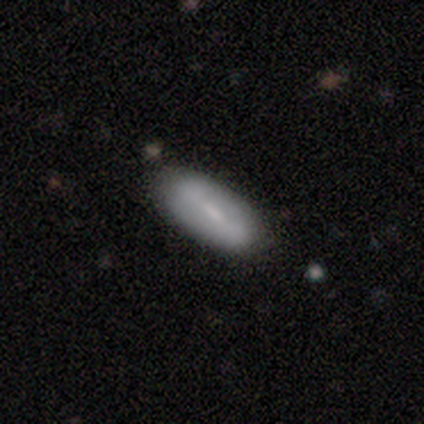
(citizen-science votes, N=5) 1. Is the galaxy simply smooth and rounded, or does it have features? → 60% smooth, 40% featured or disk, 0% star or artifact.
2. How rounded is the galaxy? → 67% in between, 33% cigar-shaped, 0% round.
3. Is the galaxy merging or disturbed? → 80% none, 20% major disturbance, 0% minor disturbance, 0% merger.